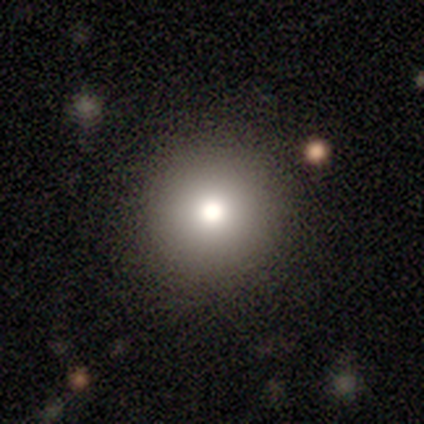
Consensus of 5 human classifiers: Volunteers were most divided on "smooth or featured" (2-way tie): smooth: 40%, featured or disk: 40%, star or artifact: 20%. More confident: how rounded — round (100%); merging — none (75%).